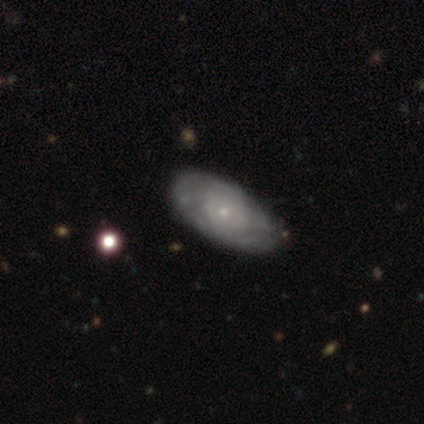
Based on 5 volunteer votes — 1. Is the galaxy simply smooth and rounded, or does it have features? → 60% featured or disk, 40% smooth, 0% star or artifact.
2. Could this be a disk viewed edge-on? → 100% no, 0% yes.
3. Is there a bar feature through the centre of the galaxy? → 100% no, 0% strong, 0% weak.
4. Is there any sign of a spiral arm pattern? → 100% yes, 0% no.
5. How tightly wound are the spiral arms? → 100% tight, 0% medium, 0% loose.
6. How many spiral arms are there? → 67% can't tell, 33% 2, 0% 1, 0% 3, 0% 4, 0% more than 4.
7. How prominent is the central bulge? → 100% small, 0% dominant, 0% large, 0% moderate, 0% none.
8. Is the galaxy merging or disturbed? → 60% none, 40% minor disturbance, 0% major disturbance, 0% merger.